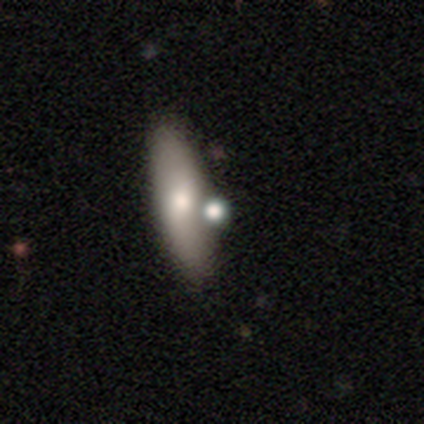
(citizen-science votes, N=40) smooth_or_featured: smooth (p=0.62) [alt: featured or disk p=0.28]
how_rounded: cigar-shaped (p=0.56) [alt: in between p=0.36]
merging: none (p=0.72) [alt: merger p=0.22]